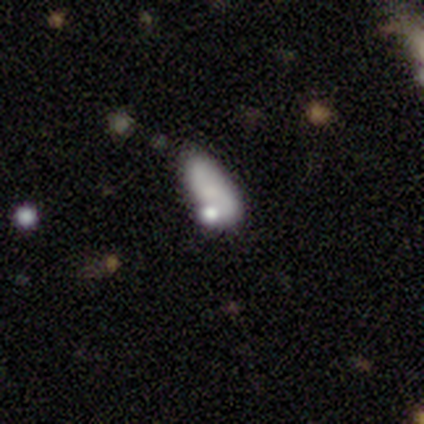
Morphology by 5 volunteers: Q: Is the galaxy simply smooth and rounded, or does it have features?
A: smooth — 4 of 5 (80%).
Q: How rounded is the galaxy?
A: in between — 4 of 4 (100%).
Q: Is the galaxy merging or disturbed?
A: none — 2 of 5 (40%, tied with minor disturbance).